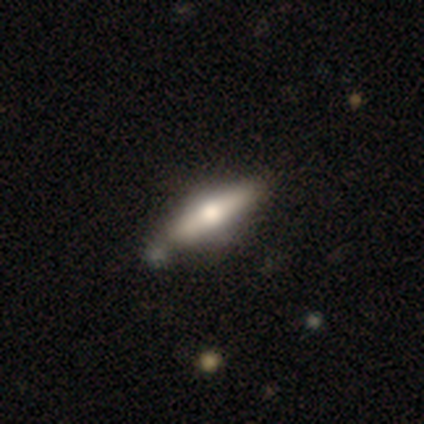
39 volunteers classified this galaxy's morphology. Overall: smooth (51%; featured or disk 44%). How rounded: cigar-shaped (80%). Merging: none (54%; minor disturbance 16%).